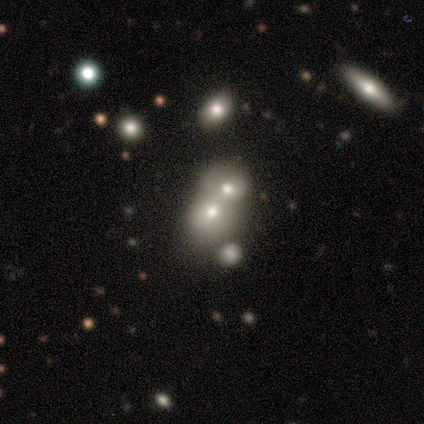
Smooth or featured?
  - smooth: 80% *
  - featured or disk: 20%
  - star or artifact: 0%
How rounded?
  - round: 100% *
  - in between: 0%
  - cigar-shaped: 0%
Merging?
  - merger: 60% *
  - none: 20%
  - minor disturbance: 20%
  - major disturbance: 0%